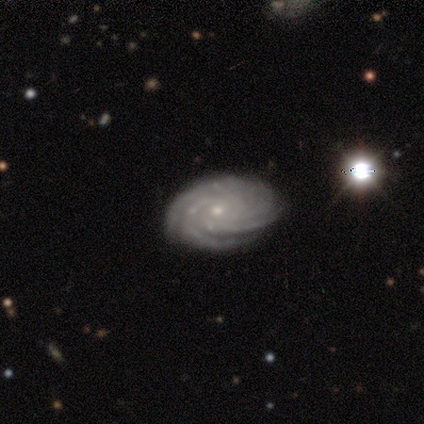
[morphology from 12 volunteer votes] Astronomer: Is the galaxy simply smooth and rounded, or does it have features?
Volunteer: featured or disk — 100%.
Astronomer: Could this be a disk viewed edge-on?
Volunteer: no — 100%.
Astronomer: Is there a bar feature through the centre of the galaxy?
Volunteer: no — 50% (runner-up: weak, 33%).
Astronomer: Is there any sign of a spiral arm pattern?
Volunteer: yes — 100%.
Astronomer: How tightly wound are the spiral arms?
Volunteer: tight — 75%.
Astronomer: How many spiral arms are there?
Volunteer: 4 — 33%, tied with more than 4 at 33%.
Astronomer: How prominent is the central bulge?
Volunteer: small — 92%.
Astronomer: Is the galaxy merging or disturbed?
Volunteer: none — 75%.